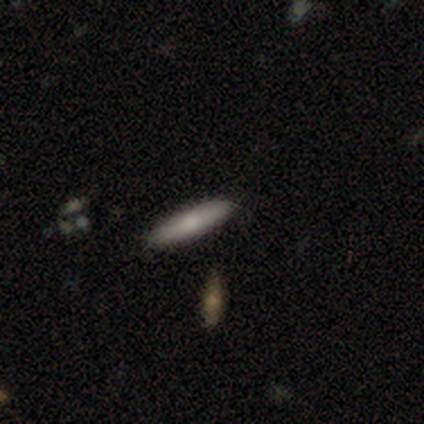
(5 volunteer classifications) A smooth galaxy with no disk features (80%) that is cigar-shaped (75%).

Vote fractions:
- Smooth or featured? smooth: 80% / featured or disk: 20% / star or artifact: 0%
- How rounded? cigar-shaped: 75% / in between: 25% / round: 0%
- Merging? none: 80% / minor disturbance: 20% / major disturbance: 0% / merger: 0%